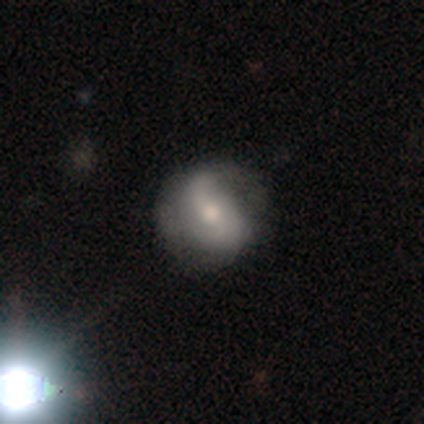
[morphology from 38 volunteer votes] type=featured or disk (71%); edge-on=no (96%); bar=weak (38%); spiral arms=yes (88%); winding=loose (70%); arm count=2 (83%); bulge=moderate (69%); merging=none (42%).